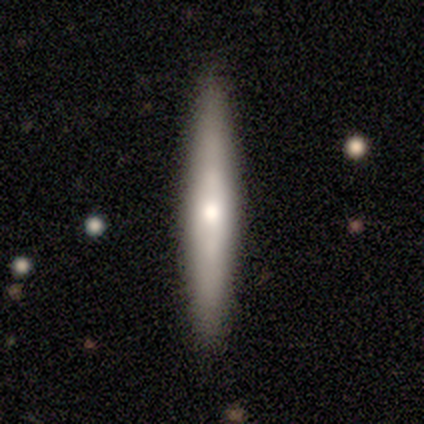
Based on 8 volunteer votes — Morphology: type=smooth (75%); roundness=cigar-shaped (100%); merging=none (100%).